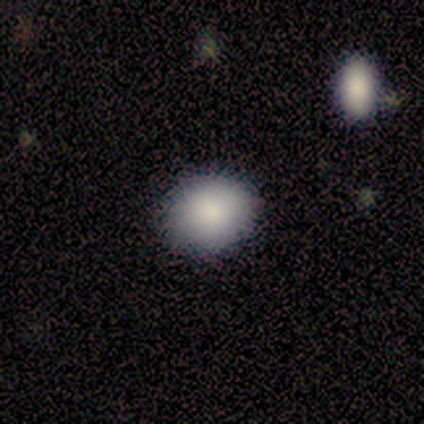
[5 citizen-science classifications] This appears to be a smooth galaxy with no disk features (100%) that is in between round and cigar-shaped (80%). Merging: none (80%).